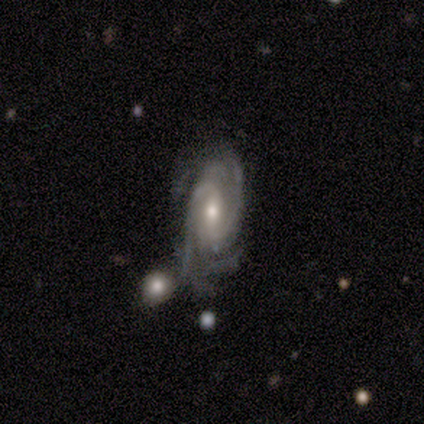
Overall: featured or disk (100%). Edge-on disk: no (100%). Bar: strong (40%, tied with weak). Spiral arms: yes (100%). Spiral arm count: 2 (80%). Spiral winding: medium (40%, tied with loose). Bulge size: moderate (60%; small 20%). Merging: none (100%).